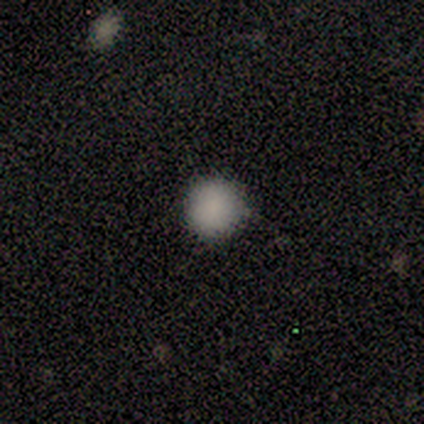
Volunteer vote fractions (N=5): smooth-or-featured: smooth: 80% | featured or disk: 20% | star or artifact: 0%
  how-rounded: round: 100% | in between: 0% | cigar-shaped: 0%
  merging: none: 100% | minor disturbance: 0% | major disturbance: 0% | merger: 0%